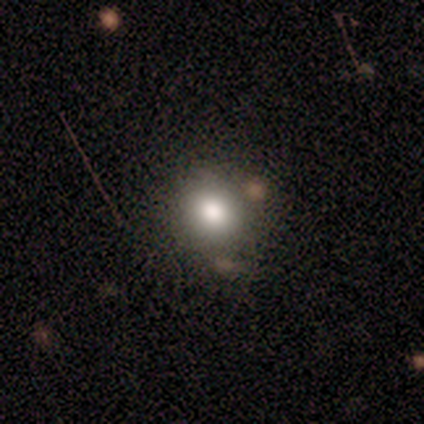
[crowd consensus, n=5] Smooth or featured? 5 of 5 (100%) said smooth. How rounded? 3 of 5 (60%) said round. Merging? 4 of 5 (80%) said none.